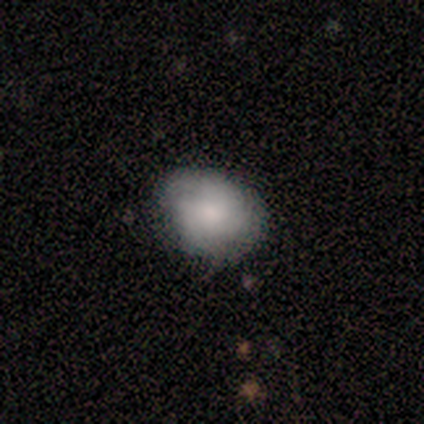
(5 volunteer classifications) smooth 80%, featured or disk 20%, star or artifact 0%. Down the decision tree: how rounded — in between (75%); merging — minor disturbance (60%).